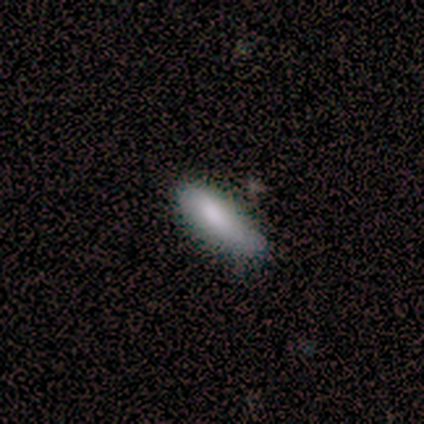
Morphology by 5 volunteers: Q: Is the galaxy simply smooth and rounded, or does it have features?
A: smooth — 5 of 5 (100%).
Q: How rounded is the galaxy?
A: cigar-shaped — 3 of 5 (60%).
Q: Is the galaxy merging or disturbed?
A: none — 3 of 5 (60%).